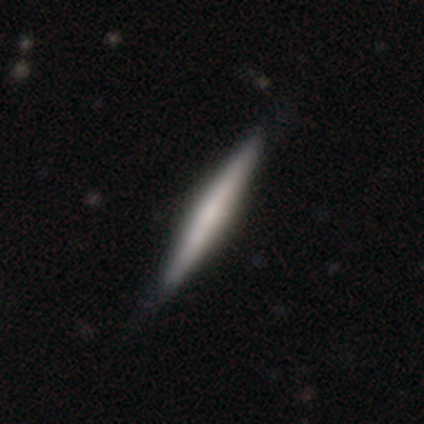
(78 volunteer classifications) Smooth or featured?
  - featured or disk: 53% *
  - smooth: 42%
  - star or artifact: 5%
Edge-on disk?
  - yes: 98% *
  - no: 2%
Edge-on bulge?
  - rounded: 48% *
  - none: 38%
  - boxy: 15%
Merging?
  - none: 41% *
  - minor disturbance: 9%
  - major disturbance: 3%
  - merger: 0%